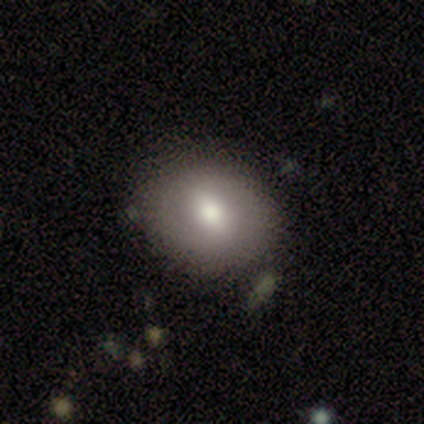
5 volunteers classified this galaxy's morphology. A smooth galaxy with no disk features (80%) that is round (100%).

Vote fractions:
- Smooth or featured? smooth: 80% / featured or disk: 20% / star or artifact: 0%
- How rounded? round: 100% / in between: 0% / cigar-shaped: 0%
- Merging? none: 100% / minor disturbance: 0% / major disturbance: 0% / merger: 0%